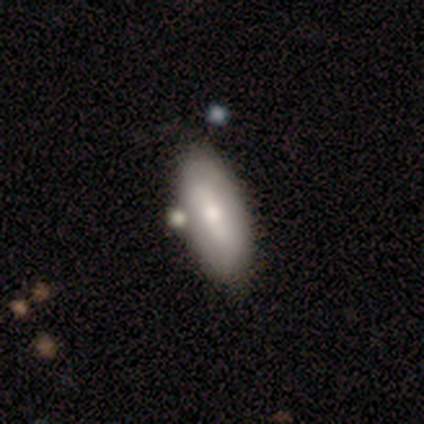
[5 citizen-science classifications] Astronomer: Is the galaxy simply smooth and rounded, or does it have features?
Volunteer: smooth — 80%.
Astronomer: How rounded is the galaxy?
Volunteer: in between — 100%.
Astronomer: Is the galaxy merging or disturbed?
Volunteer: none — 60% (runner-up: minor disturbance, 40%).